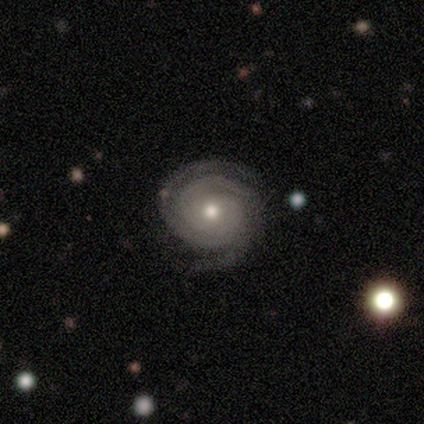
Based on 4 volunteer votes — Smooth or featured? 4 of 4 (100%) said featured or disk. Edge-on disk? 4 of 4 (100%) said no. Bar? 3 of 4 (75%) said no. Spiral arms? 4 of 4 (100%) said yes. Spiral winding? 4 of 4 (100%) said tight. Spiral arm count? 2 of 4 (50%) said 3. Bulge size? 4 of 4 (100%) said moderate. Merging? 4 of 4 (100%) said none.